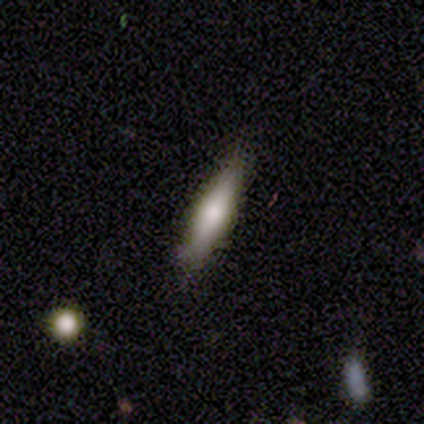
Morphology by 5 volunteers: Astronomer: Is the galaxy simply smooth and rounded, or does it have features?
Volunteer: smooth — 60%.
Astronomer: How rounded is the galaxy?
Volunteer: cigar-shaped — 67%.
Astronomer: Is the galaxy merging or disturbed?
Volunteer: none — 75%.